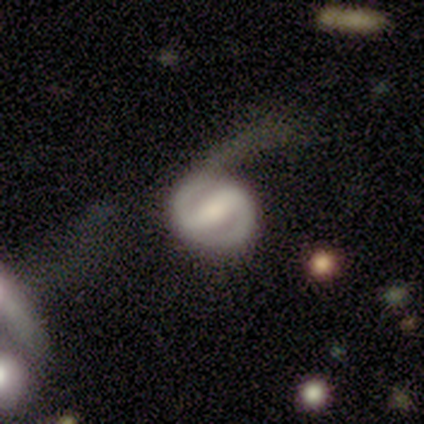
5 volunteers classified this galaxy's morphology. Smooth or featured? 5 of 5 (100%) said featured or disk. Edge-on disk? 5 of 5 (100%) said no. Bar? 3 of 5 (60%) said strong. Spiral arms? 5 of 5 (100%) said yes. Spiral winding? 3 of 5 (60%) said medium. Spiral arm count? 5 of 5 (100%) said 2. Bulge size? 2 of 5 (40%, tied with none) said moderate. Merging? 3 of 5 (60%) said none.